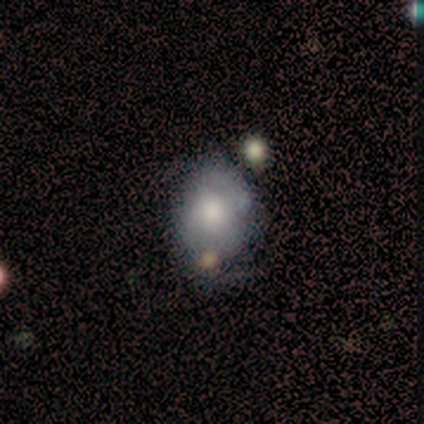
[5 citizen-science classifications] smooth_or_featured: smooth (p=0.60) [alt: featured or disk p=0.40]
how_rounded: in between (p=0.67) [alt: round p=0.33]
merging: none (p=0.60) [alt: minor disturbance p=0.20]